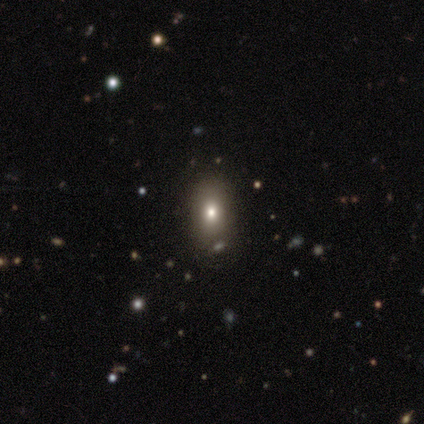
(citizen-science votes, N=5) smooth_or_featured: smooth (p=0.60) [alt: featured or disk p=0.20]
how_rounded: in between (p=1.00)
merging: none (p=0.75) [alt: minor disturbance p=0.25]